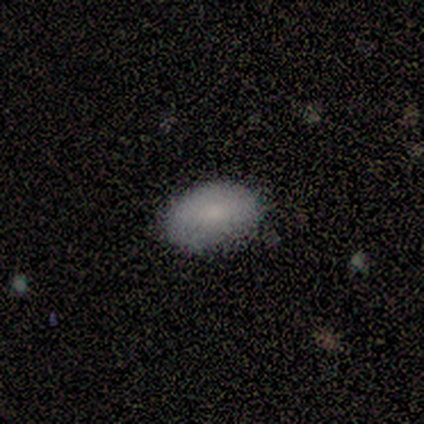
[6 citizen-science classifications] smooth-or-featured: smooth: 50% | star or artifact: 33% | featured or disk: 17%
  how-rounded: in between: 67% | round: 33% | cigar-shaped: 0%
  merging: none: 50% (tied) | minor disturbance: 50% (tied) | major disturbance: 0% | merger: 0%